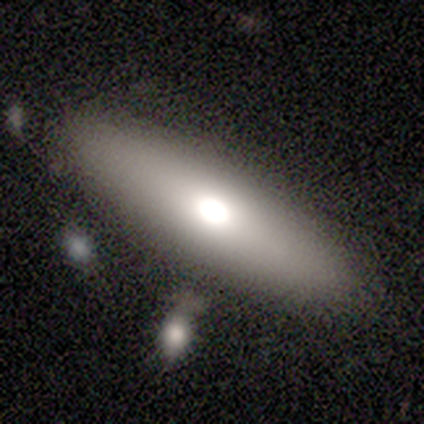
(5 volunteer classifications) smooth 100%, featured or disk 0%, star or artifact 0%. Down the decision tree: how rounded — in between (60%); merging — none (100%).